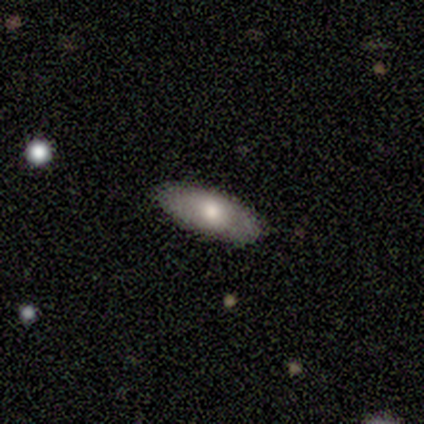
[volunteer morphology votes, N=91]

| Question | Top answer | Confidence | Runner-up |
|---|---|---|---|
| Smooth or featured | smooth | 71% | featured or disk (24%) |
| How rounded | in between | 72% | cigar-shaped (26%) |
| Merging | none | 90% | minor disturbance (8%) |